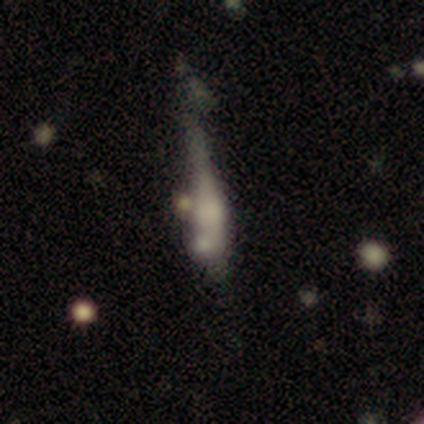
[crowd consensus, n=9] Overall: featured or disk (56%; smooth 44%). Edge-on disk: yes (100%). Edge-on bulge: rounded (80%). Merging: minor disturbance (44%; none 22%).